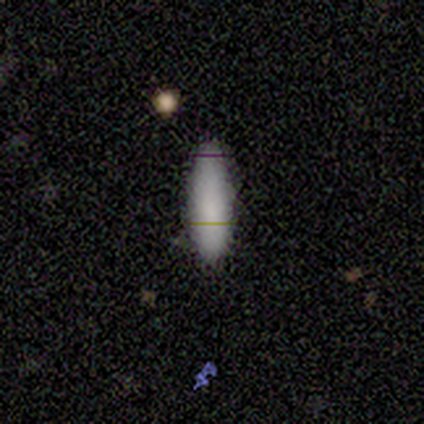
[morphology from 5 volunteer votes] type=smooth (60%); roundness=in between (67%); merging=none (67%).